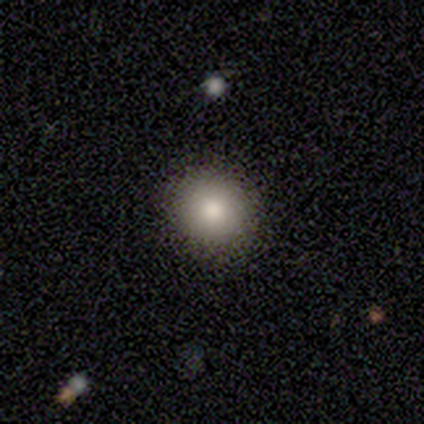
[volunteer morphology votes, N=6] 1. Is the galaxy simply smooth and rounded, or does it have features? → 83% smooth, 17% star or artifact, 0% featured or disk.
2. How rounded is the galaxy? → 80% round, 20% in between, 0% cigar-shaped.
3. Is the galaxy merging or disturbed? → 80% none, 20% major disturbance, 0% minor disturbance, 0% merger.